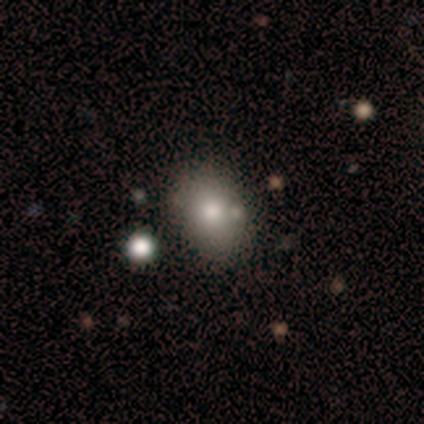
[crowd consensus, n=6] Smooth or featured?
  - smooth: 67% *
  - featured or disk: 33%
  - star or artifact: 0%
How rounded?
  - in between: 75% *
  - round: 25%
  - cigar-shaped: 0%
Merging?
  - none: 83% *
  - major disturbance: 17%
  - minor disturbance: 0%
  - merger: 0%